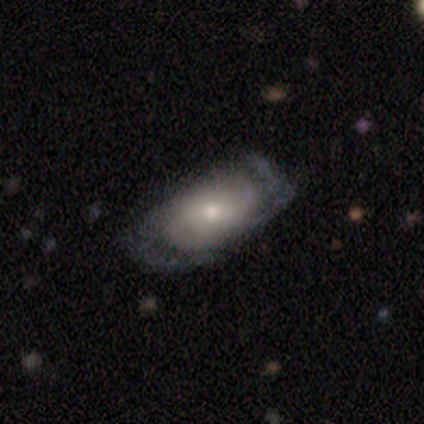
Q: Smooth or featured?
A: featured or disk (71%); runner-up: smooth (26%)
Q: Edge-on disk?
A: no (93%); runner-up: yes (7%)
Q: Bar?
A: no (56%); runner-up: weak (40%)
Q: Spiral arms?
A: yes (84%); runner-up: no (16%)
Q: Spiral winding?
A: medium (57%); runner-up: tight (24%)
Q: Spiral arm count?
A: 2 (76%); runner-up: can't tell (19%)
Q: Bulge size?
A: moderate (52%); runner-up: small (32%)
Q: Merging?
A: none (68%); runner-up: minor disturbance (22%)